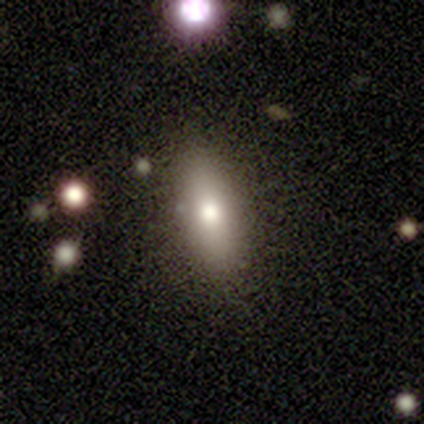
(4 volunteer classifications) This is possibly a smooth galaxy (50%, tied with featured or disk). How rounded: clearly cigar-shaped (100%). Merging: likely none (75%).